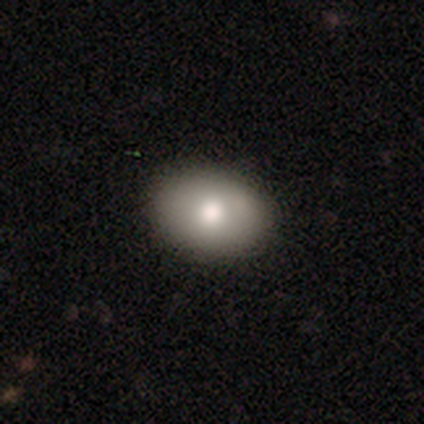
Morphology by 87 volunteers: Smooth or featured?
  - smooth: 78% *
  - featured or disk: 16%
  - star or artifact: 6%
How rounded?
  - in between: 82% *
  - round: 16%
  - cigar-shaped: 1%
Merging?
  - none: 87% *
  - minor disturbance: 9%
  - merger: 4%
  - major disturbance: 1%